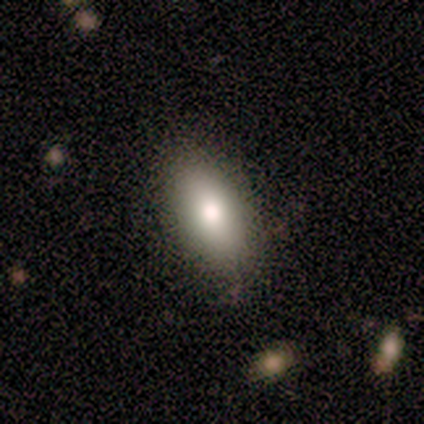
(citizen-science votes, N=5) Smooth or featured?
  - smooth: 60% *
  - featured or disk: 40%
  - star or artifact: 0%
How rounded?
  - in between: 100% *
  - round: 0%
  - cigar-shaped: 0%
Merging?
  - none: 100% *
  - minor disturbance: 0%
  - major disturbance: 0%
  - merger: 0%